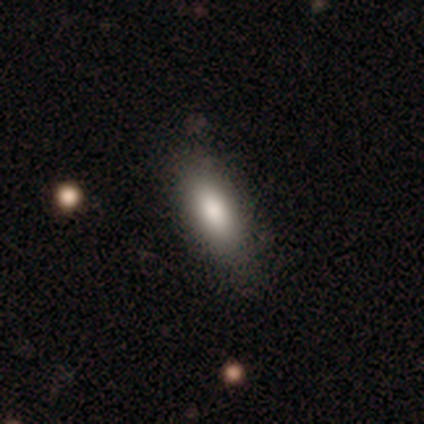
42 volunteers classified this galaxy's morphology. Smooth or featured? smooth (86%)
How rounded? in between (81%)
Merging? none (68%)